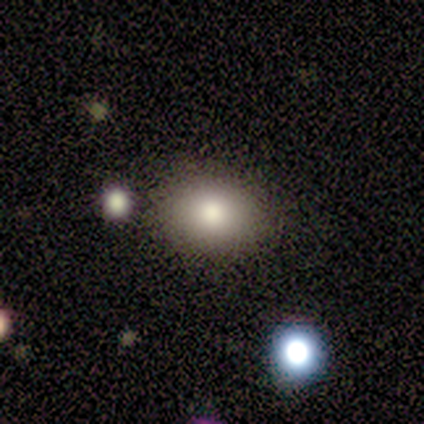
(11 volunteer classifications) This is clearly a smooth galaxy (91%). How rounded: likely in between (70%). Merging: clearly none (100%).